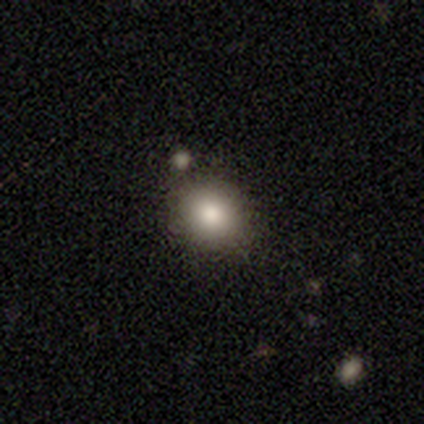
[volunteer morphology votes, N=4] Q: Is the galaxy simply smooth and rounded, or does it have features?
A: smooth — 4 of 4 (100%).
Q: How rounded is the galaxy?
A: round — 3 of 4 (75%).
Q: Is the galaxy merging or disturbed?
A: none — 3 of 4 (75%).